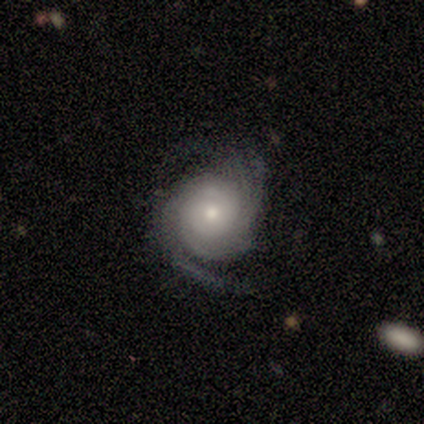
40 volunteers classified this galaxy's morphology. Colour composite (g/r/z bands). It shows a featured or disk galaxy (82%) with no bar (79%), 3 (31%, tied with can't tell) tight (72%) spiral arms (97%) and a small central bulge (58%). Merging: none (68%).